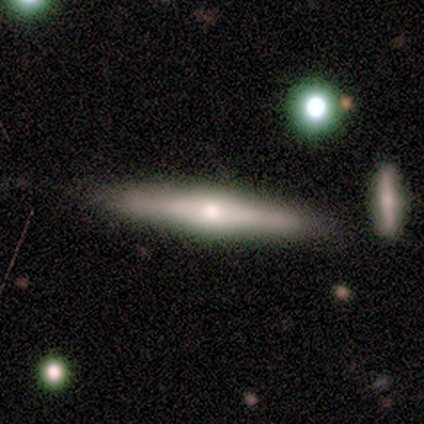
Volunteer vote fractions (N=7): smooth_or_featured: featured or disk (p=0.57) [alt: smooth p=0.43]
disk_edge_on: yes (p=0.75) [alt: no p=0.25]
edge_on_bulge: rounded (p=0.67) [alt: boxy p=0.33]
merging: none (p=0.86) [alt: major disturbance p=0.14]